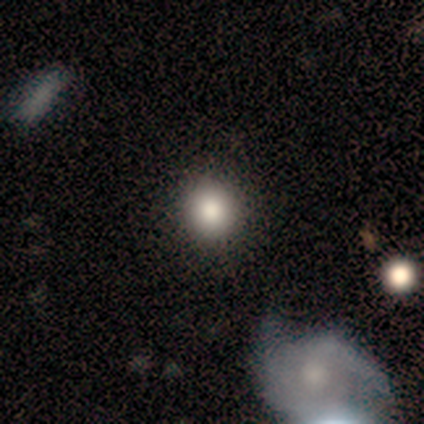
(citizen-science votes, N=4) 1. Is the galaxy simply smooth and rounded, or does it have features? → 50% smooth (tied), 50% star or artifact (tied), 0% featured or disk.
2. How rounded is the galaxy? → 100% round, 0% in between, 0% cigar-shaped.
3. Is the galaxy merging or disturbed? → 100% none, 0% minor disturbance, 0% major disturbance, 0% merger.